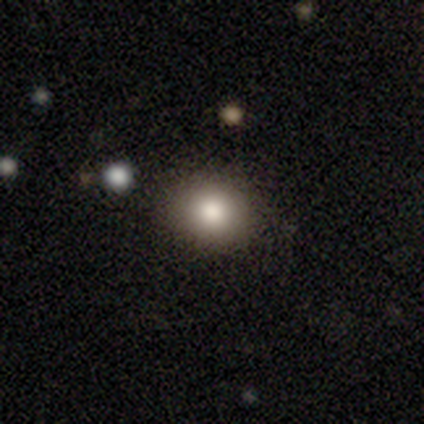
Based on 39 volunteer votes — smooth_or_featured: smooth (p=0.79) [alt: featured or disk p=0.10]
how_rounded: round (p=0.71) [alt: in between p=0.29]
merging: none (p=0.63) [alt: minor disturbance p=0.11]